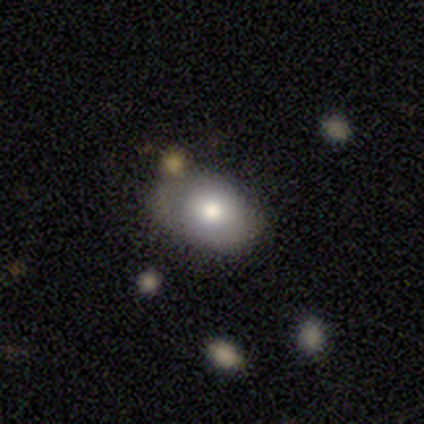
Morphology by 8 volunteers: Smooth or featured? smooth (75%)
How rounded? in between (100%)
Merging? none (43%, tied with minor disturbance)